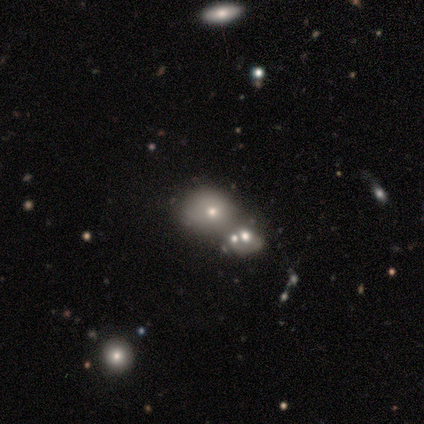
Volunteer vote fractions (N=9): Smooth or featured?
  - smooth: 67% *
  - featured or disk: 33%
  - star or artifact: 0%
How rounded?
  - round: 83% *
  - in between: 17%
  - cigar-shaped: 0%
Merging?
  - none: 44% *
  - merger: 33%
  - minor disturbance: 22%
  - major disturbance: 0%